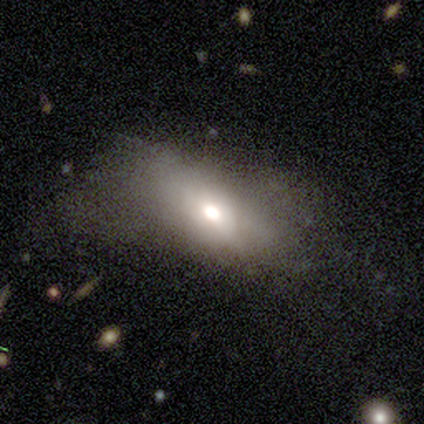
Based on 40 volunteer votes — Volunteers were most divided on "merging": none: 44%, major disturbance: 31%, minor disturbance: 19%, merger: 6%. More confident: how rounded — in between (77%); smooth or featured — smooth (65%).